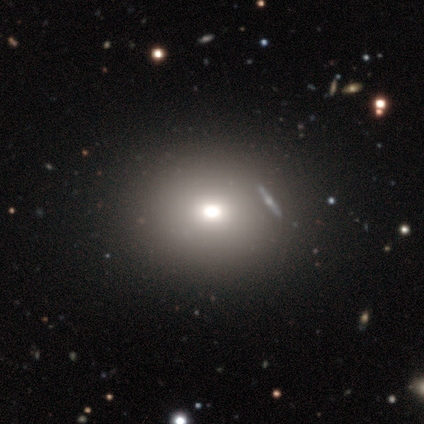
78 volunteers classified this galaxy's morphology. Smooth or featured?
  - smooth: 69% *
  - star or artifact: 22%
  - featured or disk: 9%
How rounded?
  - round: 56% *
  - in between: 41%
  - cigar-shaped: 4%
Merging?
  - none: 38% *
  - merger: 15%
  - minor disturbance: 7%
  - major disturbance: 2%